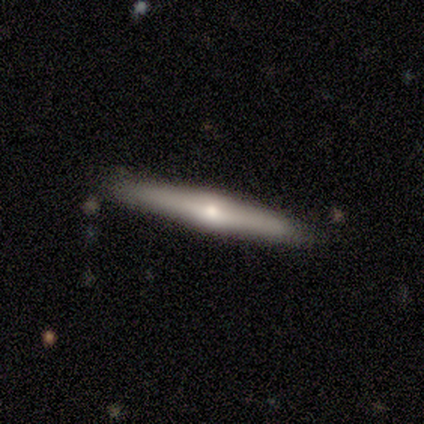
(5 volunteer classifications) A featured or disk galaxy (100%) viewed edge-on (100%) with a rounded central bulge (60%). Merging: none (100%).